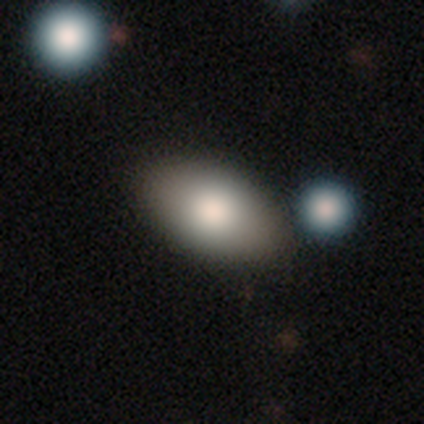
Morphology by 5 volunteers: Smooth or featured: smooth — 100%
How rounded: in between — 100%
Merging: none — 80% (minor disturbance — 20%)